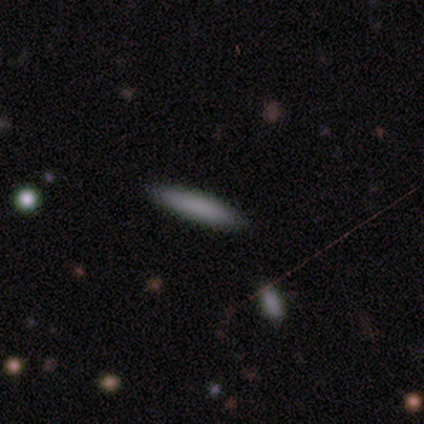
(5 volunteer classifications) Smooth or featured: smooth — 80% (featured or disk — 20%)
How rounded: cigar-shaped — 100%
Merging: none — 100%